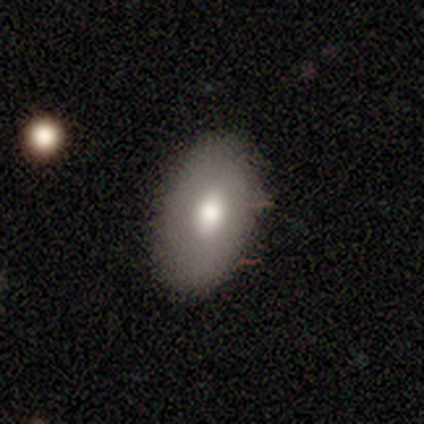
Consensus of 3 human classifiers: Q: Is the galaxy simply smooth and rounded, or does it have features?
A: smooth — 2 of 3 (67%).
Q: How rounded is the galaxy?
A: in between — 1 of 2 (50%, tied with cigar-shaped).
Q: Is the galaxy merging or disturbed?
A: none — 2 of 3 (67%).